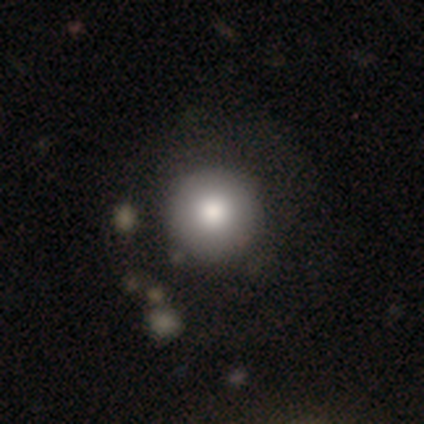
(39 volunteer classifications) Q: Smooth or featured?
A: smooth (77%); runner-up: featured or disk (21%)
Q: How rounded?
A: round (100%)
Q: Merging?
A: none (53%); runner-up: minor disturbance (11%)